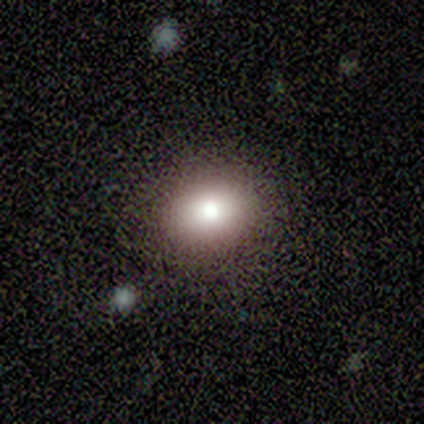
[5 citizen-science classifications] Smooth or featured? smooth (60%)
How rounded? round (67%)
Merging? none (100%)